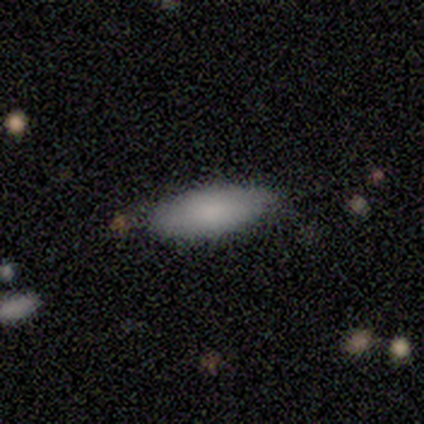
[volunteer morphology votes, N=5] Overall: smooth (100%). How rounded: cigar-shaped (60%; in between 40%). Merging: none (60%; minor disturbance 40%).